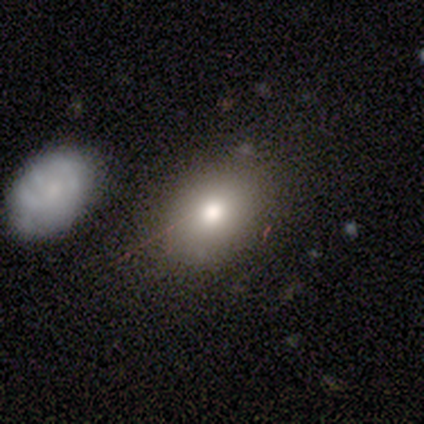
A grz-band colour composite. It shows a smooth galaxy with no disk features (100%) that is round (60%). Merging: none (60%).